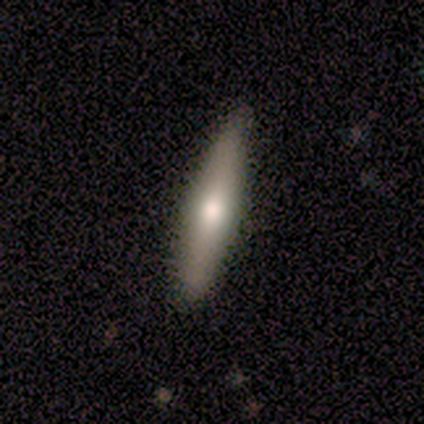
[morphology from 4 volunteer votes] This appears to be a smooth galaxy with no disk features (75%) that is cigar-shaped (67%). Merging: none (100%).